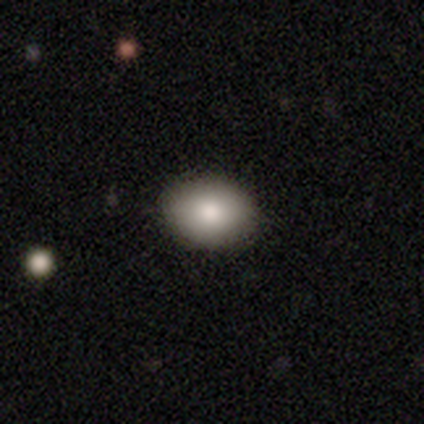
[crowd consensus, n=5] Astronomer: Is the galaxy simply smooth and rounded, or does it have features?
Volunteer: smooth — 100%.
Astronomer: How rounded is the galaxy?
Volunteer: in between — 80%.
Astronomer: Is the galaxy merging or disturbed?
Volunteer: none — 100%.